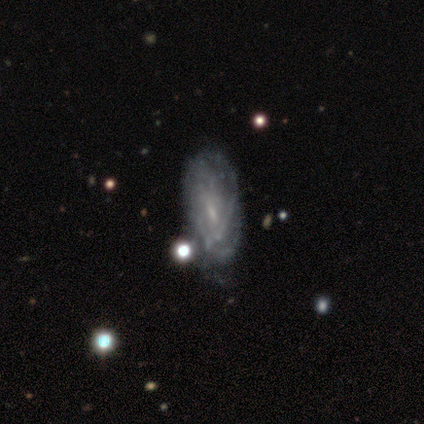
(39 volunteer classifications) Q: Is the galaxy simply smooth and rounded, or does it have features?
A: featured or disk — 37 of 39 (95%).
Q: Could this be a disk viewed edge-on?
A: no — 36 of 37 (97%).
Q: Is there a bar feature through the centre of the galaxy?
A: weak — 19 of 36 (53%).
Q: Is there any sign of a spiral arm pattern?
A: yes — 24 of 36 (67%).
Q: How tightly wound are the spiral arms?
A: tight — 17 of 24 (71%).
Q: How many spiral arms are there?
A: can't tell — 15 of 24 (62%).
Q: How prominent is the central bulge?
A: small — 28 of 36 (78%).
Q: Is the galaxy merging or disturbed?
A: none — 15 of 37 (41%).